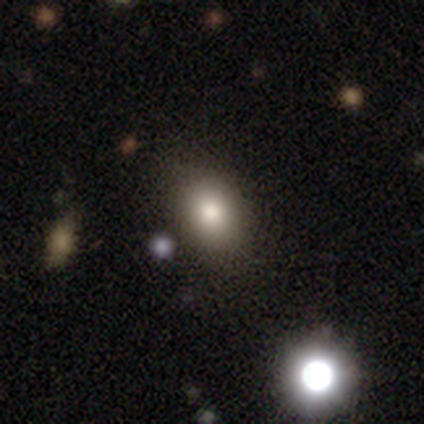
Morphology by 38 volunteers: Smooth or featured? smooth (71%)
How rounded? in between (78%)
Merging? none (94%)